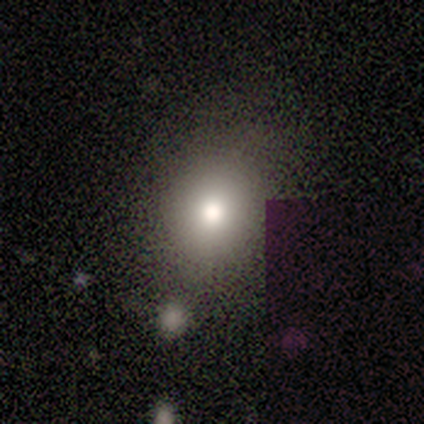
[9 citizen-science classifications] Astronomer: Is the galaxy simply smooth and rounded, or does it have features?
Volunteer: smooth — 56%.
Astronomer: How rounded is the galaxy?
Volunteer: in between — 80%.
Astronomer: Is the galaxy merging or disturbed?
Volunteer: none — 86%.